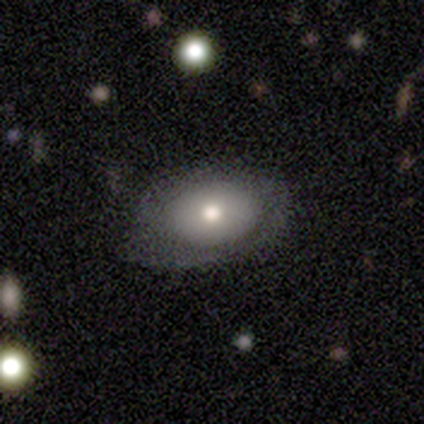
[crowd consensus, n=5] This appears to be a smooth galaxy with no disk features (80%) that is in between round and cigar-shaped (100%). Merging: minor disturbance (60%).